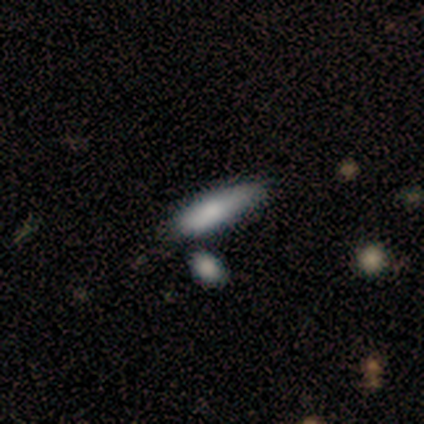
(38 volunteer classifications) Q: Smooth or featured?
A: smooth (82%); runner-up: featured or disk (16%)
Q: How rounded?
A: cigar-shaped (68%); runner-up: in between (29%)
Q: Merging?
A: none (54%); runner-up: minor disturbance (27%)